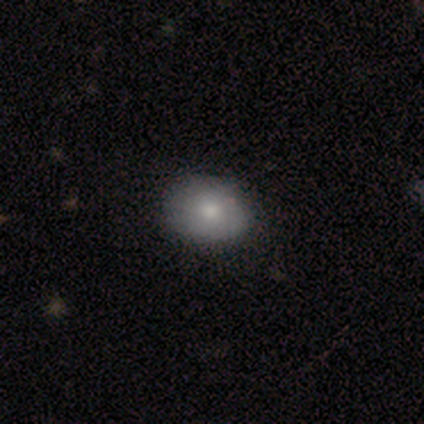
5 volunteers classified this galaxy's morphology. A smooth galaxy with no disk features (100%) that is round (60%).

Vote fractions:
- Smooth or featured? smooth: 100% / featured or disk: 0% / star or artifact: 0%
- How rounded? round: 60% / in between: 40% / cigar-shaped: 0%
- Merging? none: 80% / minor disturbance: 20% / major disturbance: 0% / merger: 0%